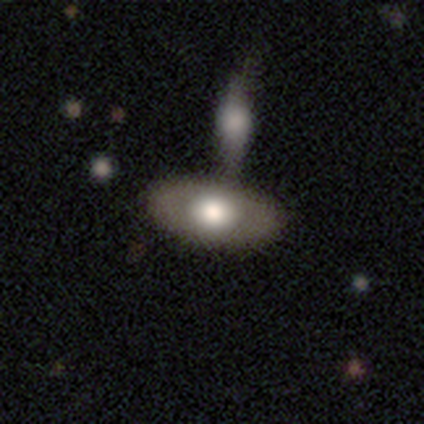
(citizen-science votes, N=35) smooth-or-featured: smooth: 57% | featured or disk: 40% | star or artifact: 3%
  how-rounded: in between: 95% | round: 5% | cigar-shaped: 0%
  merging: merger: 53% | none: 0% | minor disturbance: 0% | major disturbance: 0%